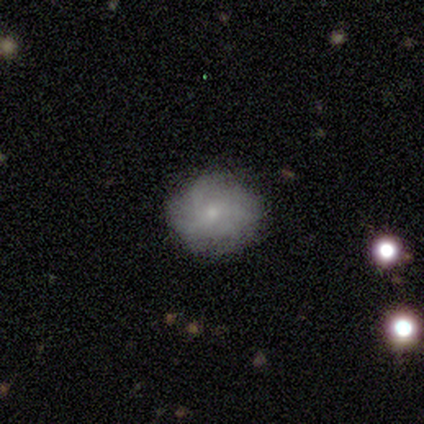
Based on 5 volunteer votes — Q: Smooth or featured?
A: smooth (60%); runner-up: featured or disk (40%)
Q: How rounded?
A: round (67%); runner-up: in between (33%)
Q: Merging?
A: none (80%); runner-up: minor disturbance (20%)